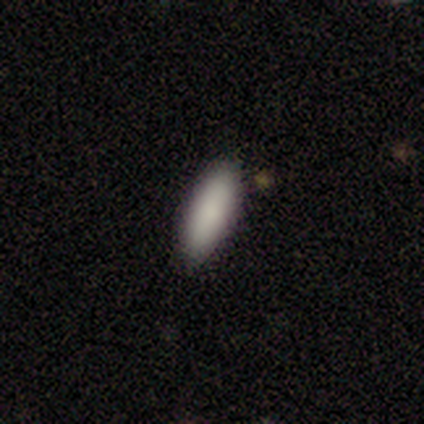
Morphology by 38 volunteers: smooth-or-featured: smooth: 87% | featured or disk: 11% | star or artifact: 3%
  how-rounded: in between: 79% | cigar-shaped: 21% | round: 0%
  merging: none: 89% | minor disturbance: 5% | major disturbance: 3% | merger: 3%